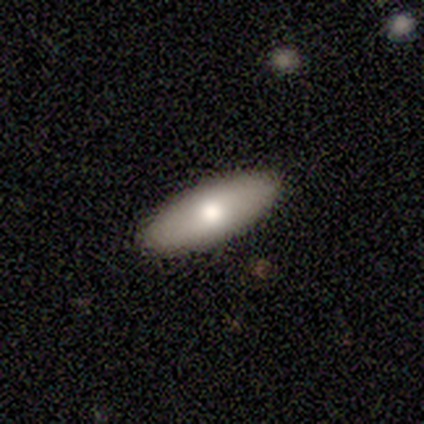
A smooth galaxy with no disk features (80%) that is in between round and cigar-shaped (75%). Merging: none (100%).